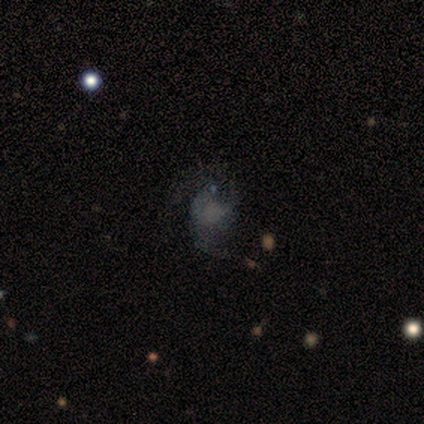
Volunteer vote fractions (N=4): Smooth or featured?
  - featured or disk: 75% *
  - smooth: 25%
  - star or artifact: 0%
Edge-on disk?
  - no: 100% *
  - yes: 0%
Bar?
  - no: 100% *
  - strong: 0%
  - weak: 0%
Spiral arms?
  - yes: 67% *
  - no: 33%
Spiral winding?
  - loose: 100% *
  - tight: 0%
  - medium: 0%
Spiral arm count?
  - 2: 100% *
  - 1: 0%
  - 3: 0%
  - 4: 0%
  - more than 4: 0%
  - can't tell: 0%
Bulge size?
  - none: 67% *
  - large: 33%
  - dominant: 0%
  - moderate: 0%
  - small: 0%
Merging?
  - major disturbance: 50% *
  - none: 25%
  - minor disturbance: 25%
  - merger: 0%